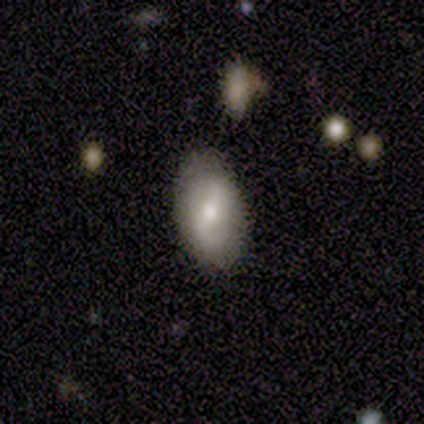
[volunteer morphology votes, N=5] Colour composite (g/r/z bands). It shows a smooth galaxy with no disk features (40%, tied with featured or disk) that is in between round and cigar-shaped (100%). Merging: none (50%, tied with minor disturbance).